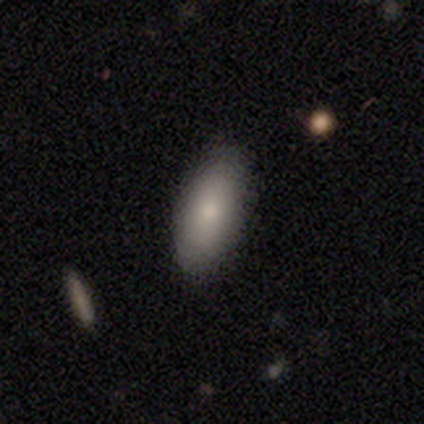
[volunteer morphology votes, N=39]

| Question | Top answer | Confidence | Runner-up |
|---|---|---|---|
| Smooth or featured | smooth | 85% | featured or disk (10%) |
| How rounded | in between | 91% | cigar-shaped (9%) |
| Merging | none | 78% | minor disturbance (22%) |